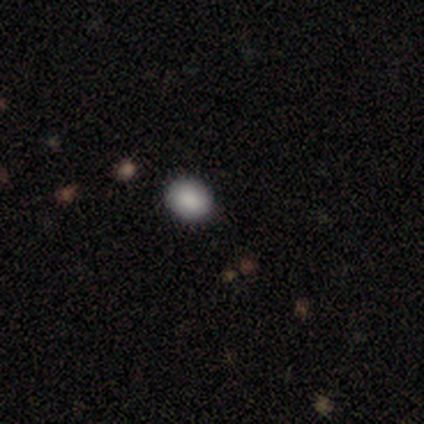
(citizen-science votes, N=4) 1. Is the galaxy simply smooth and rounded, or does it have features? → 100% smooth, 0% featured or disk, 0% star or artifact.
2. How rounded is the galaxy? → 50% round (tied), 50% in between (tied), 0% cigar-shaped.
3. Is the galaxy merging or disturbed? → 75% none, 25% minor disturbance, 0% major disturbance, 0% merger.